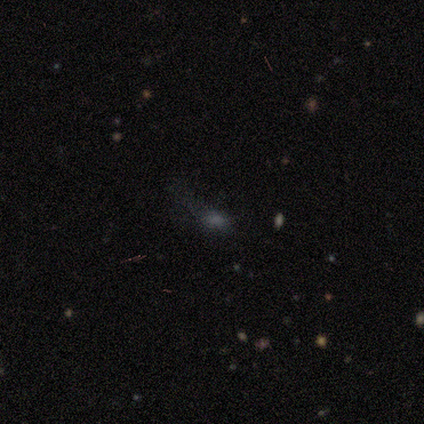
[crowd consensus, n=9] smooth_or_featured: smooth (p=0.56) [alt: featured or disk p=0.44]
how_rounded: cigar-shaped (p=0.60) [alt: in between p=0.40]
merging: none (p=0.78) [alt: minor disturbance p=0.11]